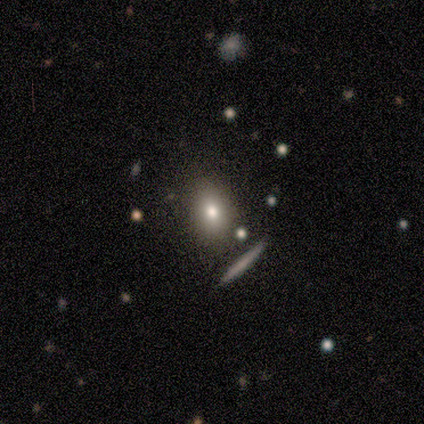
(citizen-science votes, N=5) Morphology: type=featured or disk (60%); edge-on=no (100%); bar=no (100%); spiral arms=no (100%); bulge=large (33%, tied with moderate and none); merging=none (100%).